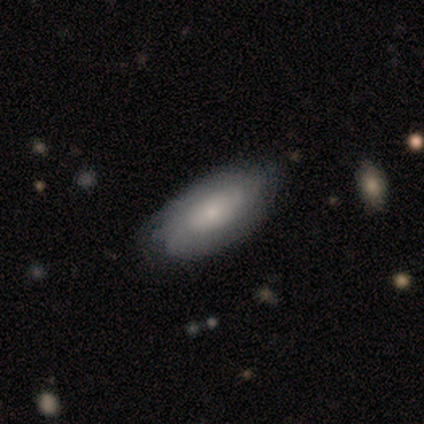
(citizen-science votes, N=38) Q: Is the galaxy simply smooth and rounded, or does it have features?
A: smooth — 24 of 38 (63%).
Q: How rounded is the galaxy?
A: in between — 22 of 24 (92%).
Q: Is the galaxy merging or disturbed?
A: none — 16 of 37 (43%).